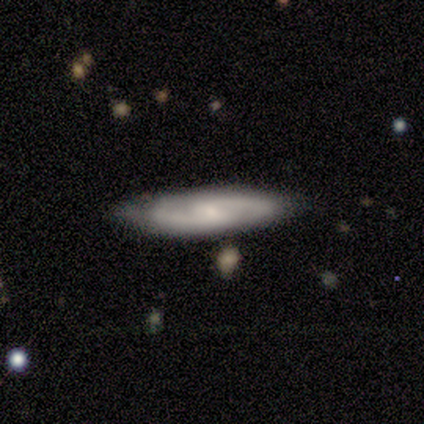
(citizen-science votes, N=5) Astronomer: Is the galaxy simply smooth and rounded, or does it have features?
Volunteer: featured or disk — 60% (runner-up: smooth, 40%).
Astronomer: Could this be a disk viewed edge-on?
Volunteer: no — 100%.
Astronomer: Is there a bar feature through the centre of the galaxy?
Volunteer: weak — 100%.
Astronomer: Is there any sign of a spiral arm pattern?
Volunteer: yes — 100%.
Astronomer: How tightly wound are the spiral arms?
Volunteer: medium — 100%.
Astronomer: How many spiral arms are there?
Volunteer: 2 — 100%.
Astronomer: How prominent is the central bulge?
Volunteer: small — 100%.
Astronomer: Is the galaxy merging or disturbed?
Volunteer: none — 60% (runner-up: minor disturbance, 40%).